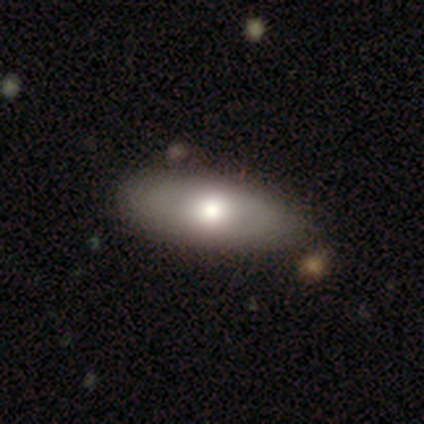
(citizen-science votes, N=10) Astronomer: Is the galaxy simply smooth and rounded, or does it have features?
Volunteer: smooth — 60%.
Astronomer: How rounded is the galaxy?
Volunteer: in between — 100%.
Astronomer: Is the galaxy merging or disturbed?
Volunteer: none — 78%.